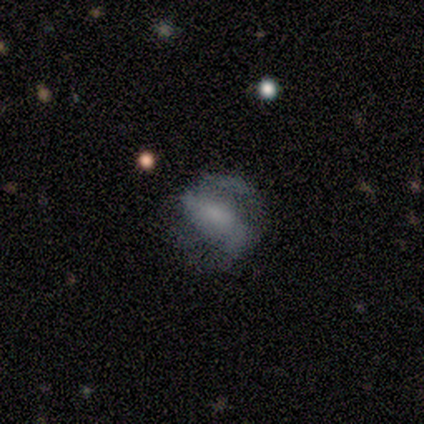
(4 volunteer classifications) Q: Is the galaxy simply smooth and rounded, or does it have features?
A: featured or disk — 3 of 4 (75%).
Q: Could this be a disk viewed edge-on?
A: no — 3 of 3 (100%).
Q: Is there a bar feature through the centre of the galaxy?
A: no — 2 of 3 (67%).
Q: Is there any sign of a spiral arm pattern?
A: yes — 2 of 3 (67%).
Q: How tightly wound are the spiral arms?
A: medium — 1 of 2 (50%, tied with loose).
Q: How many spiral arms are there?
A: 2 — 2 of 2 (100%).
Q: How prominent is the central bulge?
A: none — 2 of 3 (67%).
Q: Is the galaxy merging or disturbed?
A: none — 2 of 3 (67%).